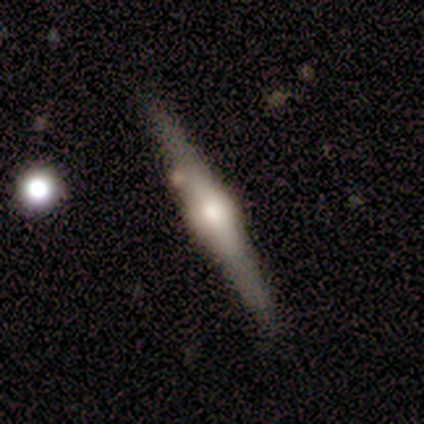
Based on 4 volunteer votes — A featured or disk galaxy (75%) viewed edge-on (100%) with a rounded central bulge (100%).

Vote fractions:
- Smooth or featured? featured or disk: 75% / smooth: 25% / star or artifact: 0%
- Edge-on disk? yes: 100% / no: 0%
- Edge-on bulge? rounded: 100% / boxy: 0% / none: 0%
- Merging? none: 75% / minor disturbance: 25% / major disturbance: 0% / merger: 0%